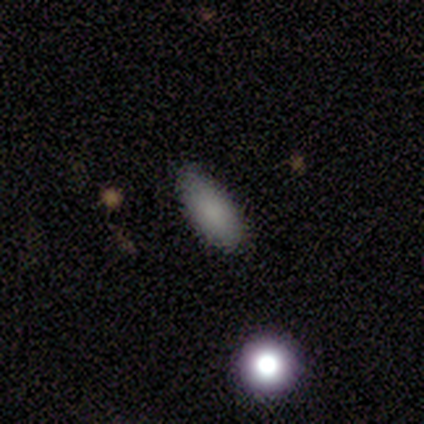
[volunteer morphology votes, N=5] Q: Smooth or featured?
A: smooth (100%)
Q: How rounded?
A: in between (100%)
Q: Merging?
A: none (100%)